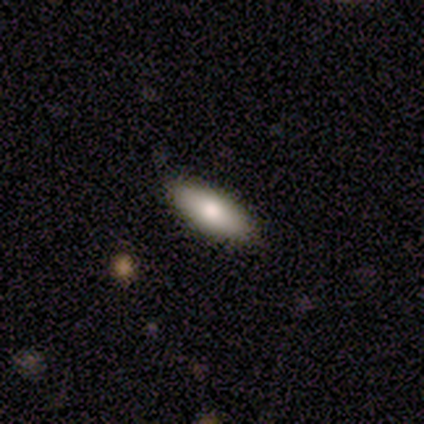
smooth 100%, featured or disk 0%, star or artifact 0%. Down the decision tree: how rounded — in between (60%); merging — none (100%).